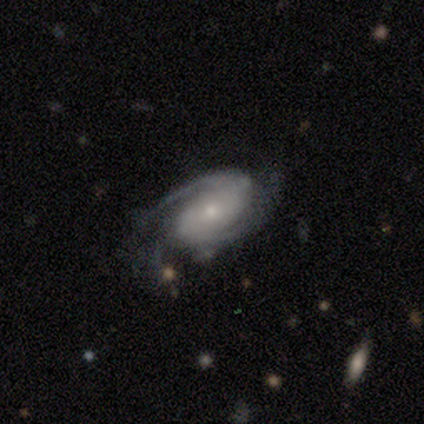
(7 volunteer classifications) Smooth or featured? 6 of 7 (86%) said featured or disk. Edge-on disk? 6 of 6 (100%) said no. Bar? 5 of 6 (83%) said no. Spiral arms? 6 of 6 (100%) said yes. Spiral winding? 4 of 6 (67%) said medium. Spiral arm count? 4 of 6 (67%) said 2. Bulge size? 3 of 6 (50%) said small. Merging? 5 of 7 (71%) said minor disturbance.